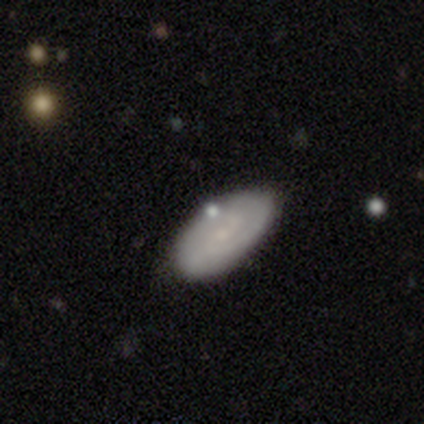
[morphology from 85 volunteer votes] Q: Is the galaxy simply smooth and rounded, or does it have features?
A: smooth — 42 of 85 (49%).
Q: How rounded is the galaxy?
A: in between — 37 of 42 (88%).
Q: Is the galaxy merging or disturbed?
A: none — 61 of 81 (75%).